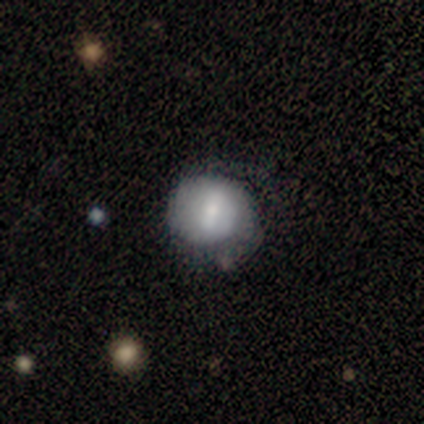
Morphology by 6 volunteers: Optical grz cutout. It shows a smooth galaxy with no disk features (50%, tied with featured or disk) that is round (100%). Merging: none (67%).